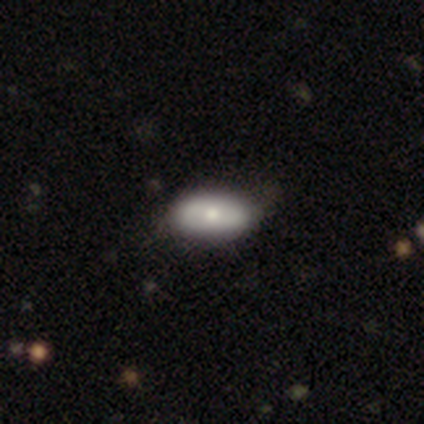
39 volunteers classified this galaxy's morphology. smooth 67%, featured or disk 33%, star or artifact 0%. Down the decision tree: how rounded — in between (100%); merging — none (56%).